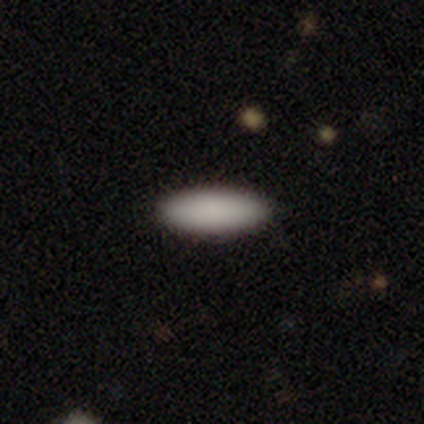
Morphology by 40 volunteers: smooth_or_featured: smooth (p=0.90) [alt: star or artifact p=0.07]
how_rounded: in between (p=0.75) [alt: cigar-shaped p=0.22]
merging: none (p=0.89) [alt: minor disturbance p=0.11]